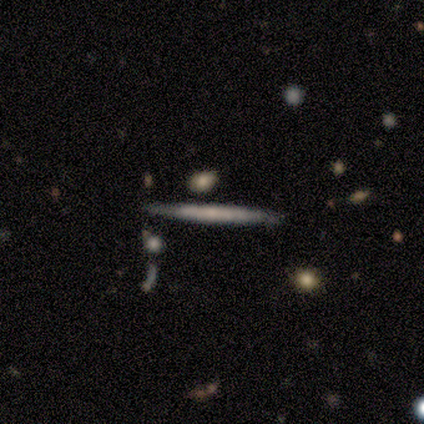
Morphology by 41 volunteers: Q: Smooth or featured?
A: featured or disk (51%); runner-up: smooth (44%)
Q: Edge-on disk?
A: yes (95%); runner-up: no (5%)
Q: Edge-on bulge?
A: none (75%); runner-up: rounded (20%)
Q: Merging?
A: none (85%); runner-up: minor disturbance (13%)